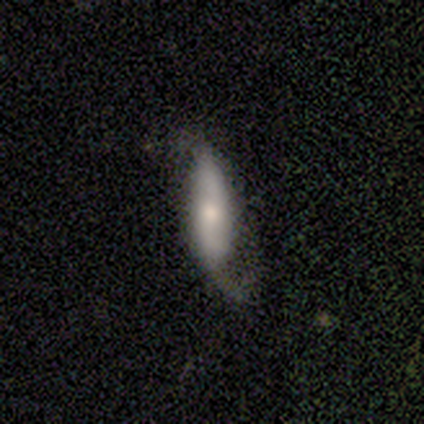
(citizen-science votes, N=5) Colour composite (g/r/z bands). It shows a featured or disk galaxy (80%) with no bar (100%), 2 (100%) medium (50%, tied with loose) spiral arms (67%) and a moderate central bulge (67%). Merging: none (50%).